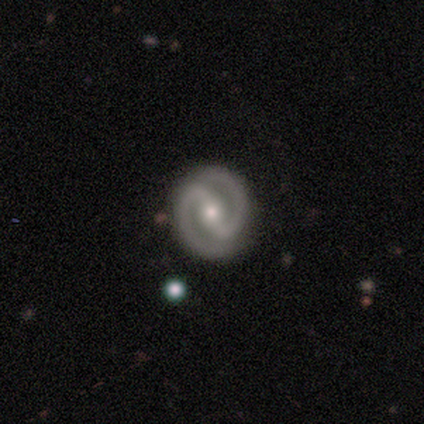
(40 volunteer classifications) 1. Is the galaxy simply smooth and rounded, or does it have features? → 95% featured or disk, 2% smooth, 2% star or artifact.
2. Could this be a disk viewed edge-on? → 100% no, 0% yes.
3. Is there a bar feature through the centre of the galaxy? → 74% strong, 21% weak, 5% no.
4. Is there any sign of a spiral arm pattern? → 97% yes, 3% no.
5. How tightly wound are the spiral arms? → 49% tight, 46% medium, 5% loose.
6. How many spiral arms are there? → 97% 2, 3% 1, 0% 3, 0% 4, 0% more than 4, 0% can't tell.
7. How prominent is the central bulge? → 53% moderate, 39% small, 8% large, 0% dominant, 0% none.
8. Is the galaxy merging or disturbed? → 51% none, 3% minor disturbance, 3% merger, 0% major disturbance.